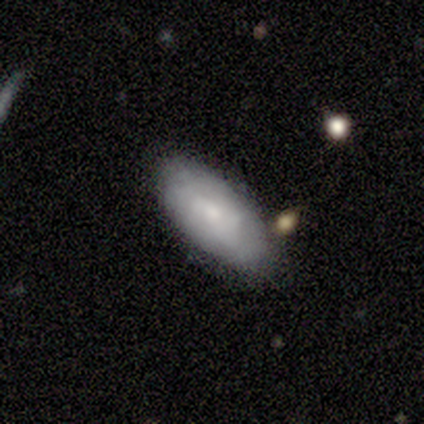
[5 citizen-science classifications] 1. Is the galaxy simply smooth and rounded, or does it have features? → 60% smooth, 40% featured or disk, 0% star or artifact.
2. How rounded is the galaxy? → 100% in between, 0% round, 0% cigar-shaped.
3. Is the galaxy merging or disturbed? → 60% minor disturbance, 40% none, 0% major disturbance, 0% merger.